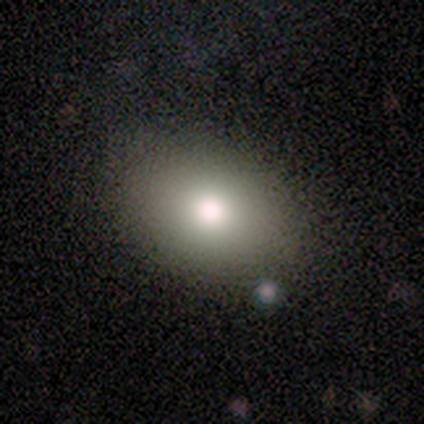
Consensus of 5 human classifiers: Q: Smooth or featured?
A: smooth (60%); runner-up: star or artifact (40%)
Q: How rounded?
A: in between (100%)
Q: Merging?
A: none (100%)